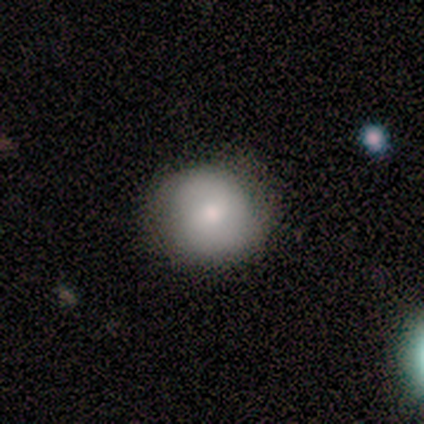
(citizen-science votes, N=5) This is likely a smooth galaxy (60%). How rounded: likely round (67%). Merging: clearly none (80%).